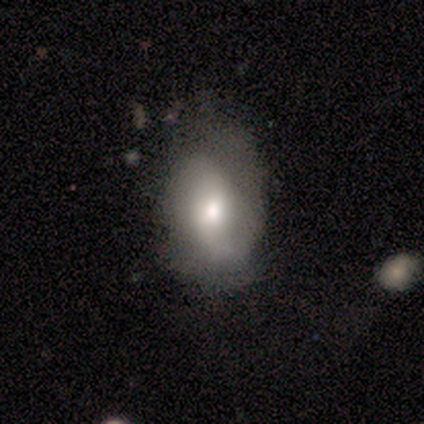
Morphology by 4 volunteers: Q: Smooth or featured?
A: smooth (50%); tied with: featured or disk (50%)
Q: How rounded?
A: in between (100%)
Q: Merging?
A: none (75%); runner-up: major disturbance (25%)